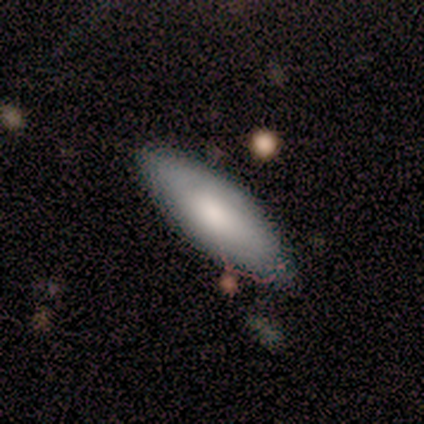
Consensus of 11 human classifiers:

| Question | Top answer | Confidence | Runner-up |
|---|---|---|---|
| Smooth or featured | smooth | 64% | featured or disk (27%) |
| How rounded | in between | 86% | cigar-shaped (14%) |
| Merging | none | 80% | minor disturbance (10%) |